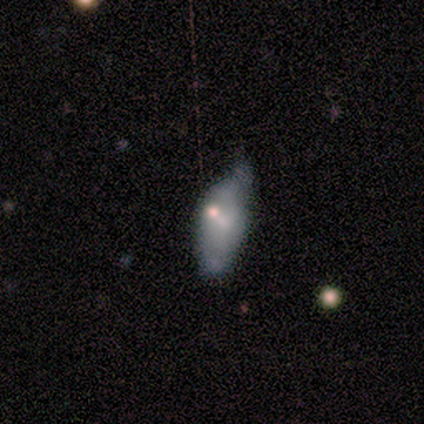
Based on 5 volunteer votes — smooth_or_featured: featured or disk (p=0.60) [alt: smooth p=0.20]
disk_edge_on: no (p=1.00)
bar: no (p=1.00)
has_spiral_arms: no (p=1.00)
bulge_size: small (p=0.67) [alt: none p=0.33]
merging: minor disturbance (p=0.75) [alt: none p=0.25]